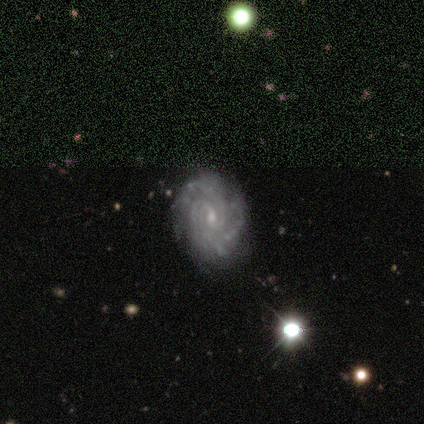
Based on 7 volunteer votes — Morphology: type=featured or disk (100%); edge-on=no (100%); bar=no (71%); spiral arms=yes (100%); winding=tight (86%); arm count=2 (71%); bulge=small (86%); merging=none (100%).